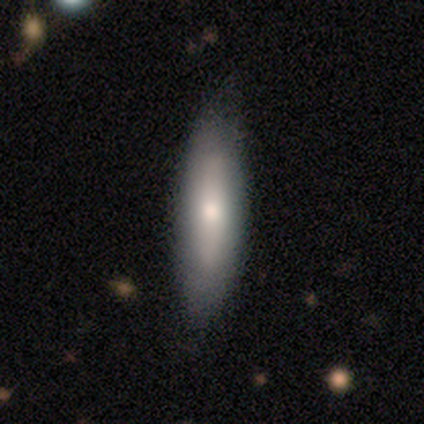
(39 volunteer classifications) Overall: smooth (67%). How rounded: cigar-shaped (54%; in between 46%). Merging: none (71%).